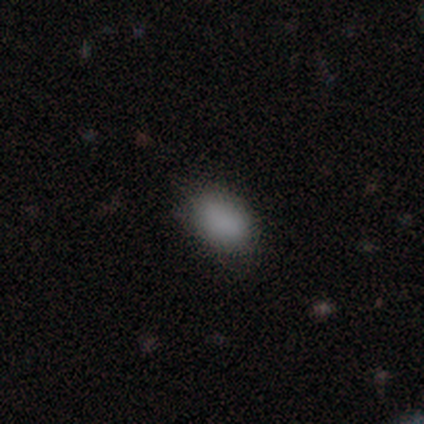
This is clearly a smooth galaxy (100%). How rounded: clearly in between (100%). Merging: likely none (75%).